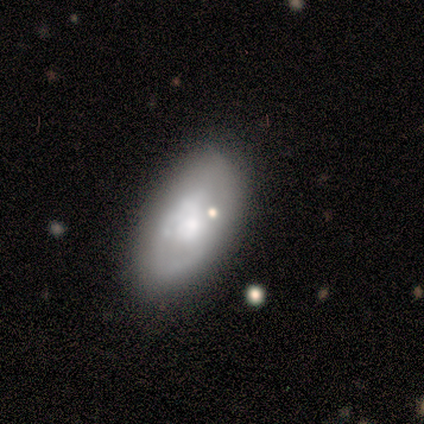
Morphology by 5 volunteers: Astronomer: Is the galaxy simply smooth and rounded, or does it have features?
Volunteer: smooth — 60%.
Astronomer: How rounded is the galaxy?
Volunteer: in between — 100%.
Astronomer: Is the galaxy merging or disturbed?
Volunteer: minor disturbance — 50%.